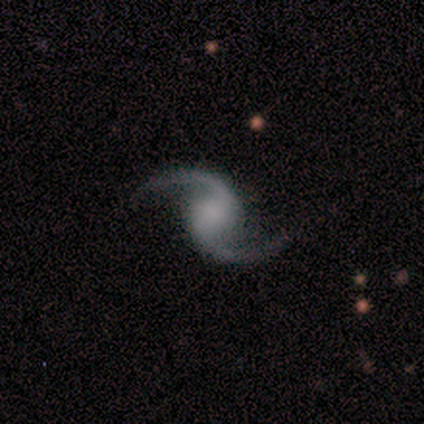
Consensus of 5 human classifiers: Smooth or featured? featured or disk (60%)
Edge-on disk? no (100%)
Bar? no (67%)
Spiral arms? yes (100%)
Spiral winding? loose (67%)
Spiral arm count? 2 (67%)
Bulge size? large (33%, tied with moderate and small)
Merging? none (75%)